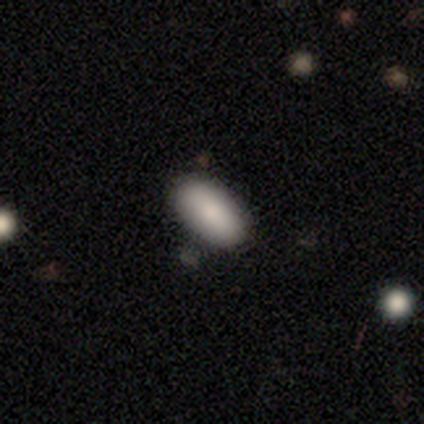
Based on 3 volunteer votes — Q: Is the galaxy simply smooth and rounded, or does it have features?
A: smooth — 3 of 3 (100%).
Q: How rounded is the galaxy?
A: in between — 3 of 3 (100%).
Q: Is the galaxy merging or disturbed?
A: none — 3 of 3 (100%).